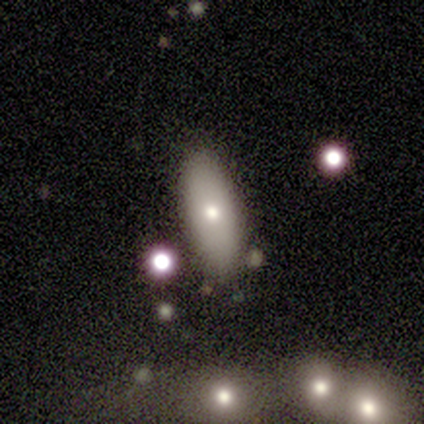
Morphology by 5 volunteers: Q: Smooth or featured?
A: smooth (100%)
Q: How rounded?
A: in between (80%); runner-up: cigar-shaped (20%)
Q: Merging?
A: none (80%); runner-up: minor disturbance (20%)